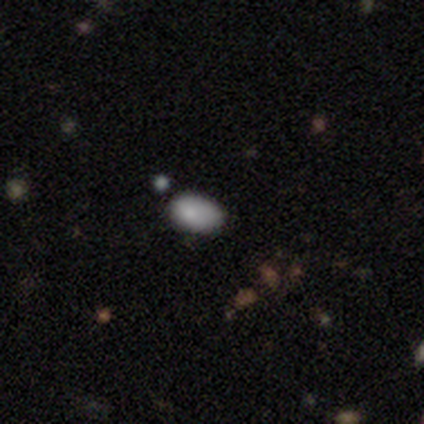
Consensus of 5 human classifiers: Q: Smooth or featured?
A: smooth (80%); runner-up: star or artifact (20%)
Q: How rounded?
A: in between (100%)
Q: Merging?
A: none (75%); runner-up: minor disturbance (25%)